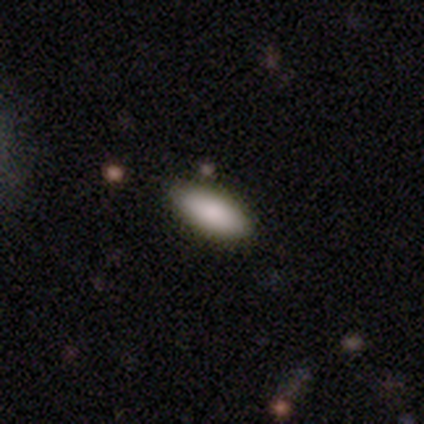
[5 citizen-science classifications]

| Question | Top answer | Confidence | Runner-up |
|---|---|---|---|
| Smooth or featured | smooth | 100% | — |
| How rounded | in between | 80% | cigar-shaped (20%) |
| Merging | none | 80% | minor disturbance (20%) |